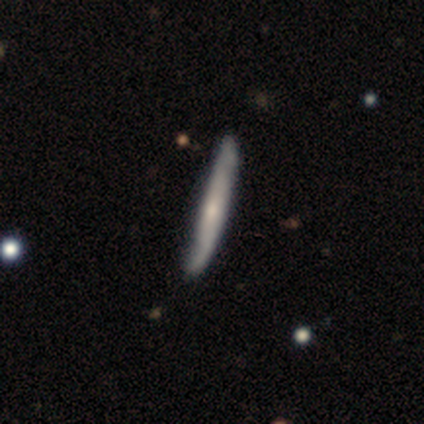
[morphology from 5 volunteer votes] Overall: featured or disk (60%; smooth 40%). Edge-on disk: yes (67%; no 33%). Edge-on bulge: rounded (100%). Merging: none (60%; minor disturbance 40%).